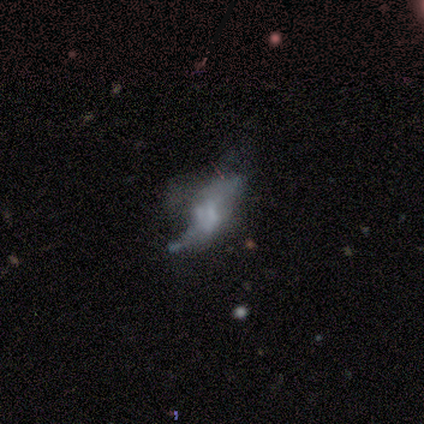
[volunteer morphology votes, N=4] Smooth or featured? featured or disk (100%)
Edge-on disk? no (100%)
Bar? no (100%)
Spiral arms? yes (50%, tied with no)
Spiral winding? medium (50%, tied with loose)
Spiral arm count? 2 (100%)
Bulge size? moderate (50%, tied with none)
Merging? none (50%, tied with major disturbance)